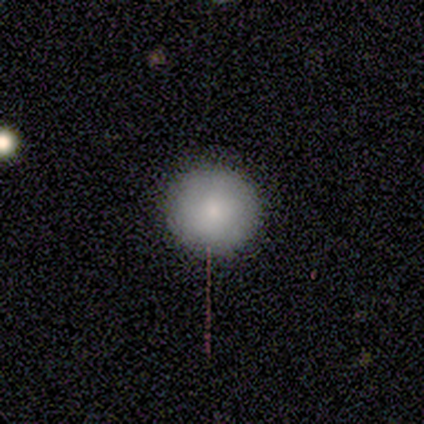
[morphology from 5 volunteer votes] Q: Smooth or featured?
A: smooth (100%)
Q: How rounded?
A: round (100%)
Q: Merging?
A: none (100%)